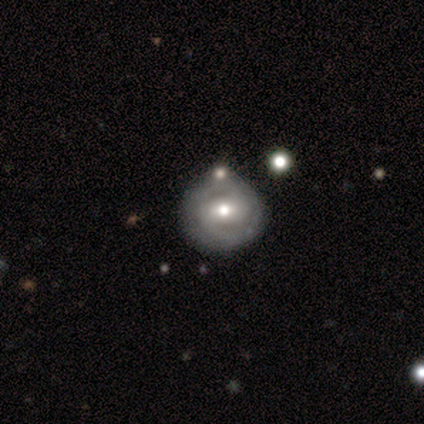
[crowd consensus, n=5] Overall: smooth (80%). How rounded: round (100%). Merging: none (80%).